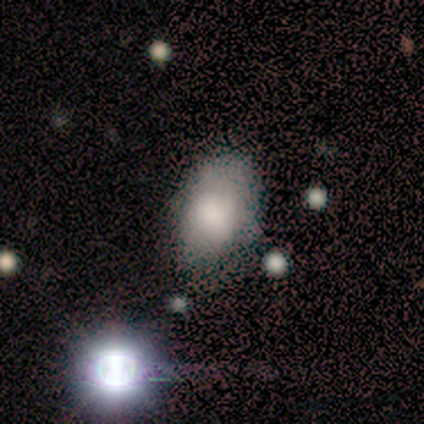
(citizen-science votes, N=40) Overall: smooth (78%). How rounded: in between (97%). Merging: none (64%).